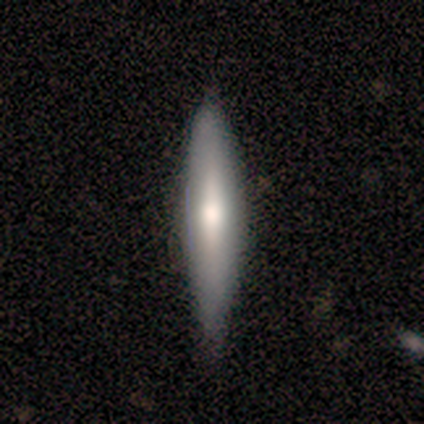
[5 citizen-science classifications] Overall: featured or disk (80%). Edge-on disk: yes (50%, tied with no). Edge-on bulge: rounded (100%). Merging: none (60%; minor disturbance 40%).